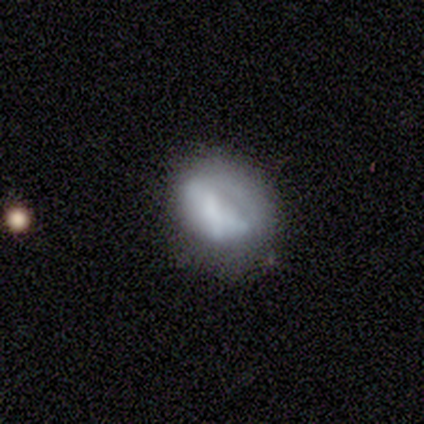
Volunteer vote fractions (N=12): A smooth galaxy with no disk features (58%) that is in between round and cigar-shaped (57%).

Vote fractions:
- Smooth or featured? smooth: 58% / featured or disk: 25% / star or artifact: 17%
- How rounded? in between: 57% / round: 43% / cigar-shaped: 0%
- Merging? none: 90% / major disturbance: 10% / minor disturbance: 0% / merger: 0%